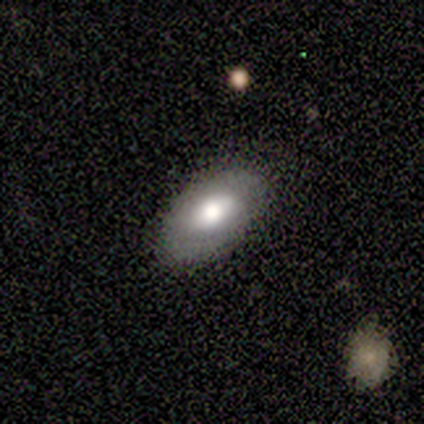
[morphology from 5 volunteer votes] Smooth or featured? 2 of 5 (40%, tied with featured or disk) said smooth. How rounded? 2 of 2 (100%) said in between. Merging? 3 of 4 (75%) said none.